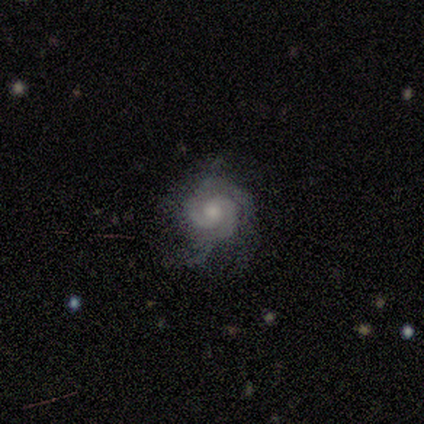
A featured or disk galaxy (40%, tied with star or artifact) with no bar (100%), 2 (50%, tied with 3) tight (100%) spiral arms (100%) and a moderate central bulge (50%, tied with none). Merging: none (100%).